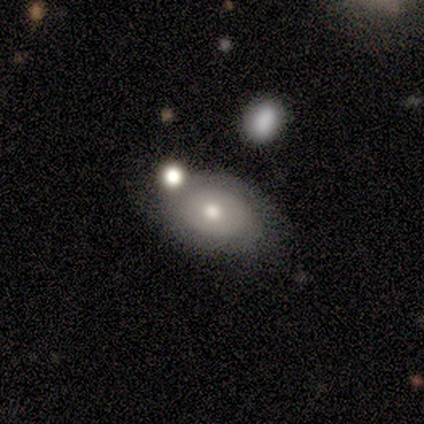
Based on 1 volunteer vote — smooth_or_featured: smooth (p=1.00)
how_rounded: in between (p=1.00)
merging: none (p=1.00)